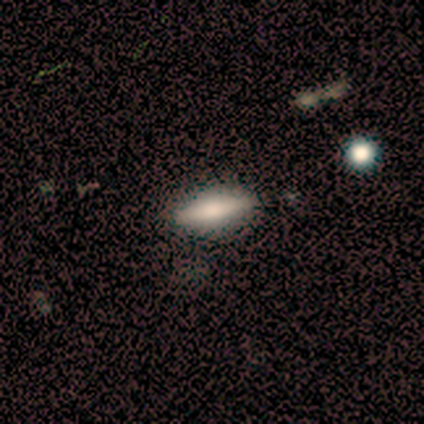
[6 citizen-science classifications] A smooth galaxy with no disk features (83%) that is cigar-shaped (80%). Merging: none (100%).